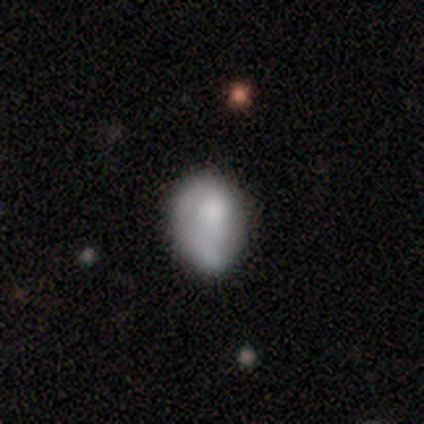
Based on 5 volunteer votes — Volunteers were most divided on "bar" (3-way tie): strong: 33%, weak: 33%, no: 33%. More confident: edge-on disk — no (100%); spiral arms — no (100%); bulge size — moderate (67%); smooth or featured — featured or disk (60%); merging — none (50%).